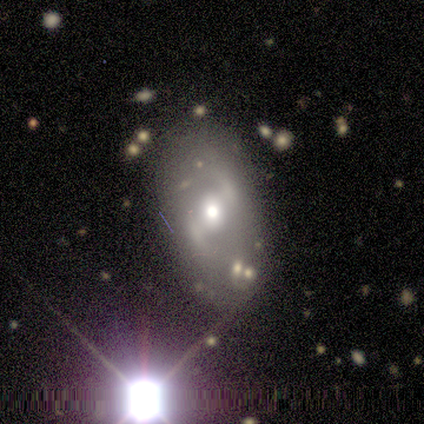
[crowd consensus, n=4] This is possibly a smooth galaxy (50%, tied with featured or disk). How rounded: clearly in between (100%). Merging: clearly none (100%).